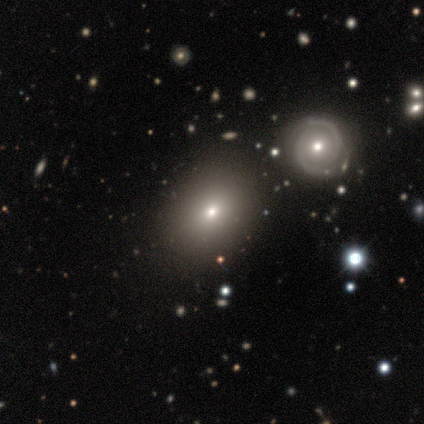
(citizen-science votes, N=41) Smooth or featured? 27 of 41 (66%) said smooth. How rounded? 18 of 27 (67%) said in between. Merging? 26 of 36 (72%) said none.